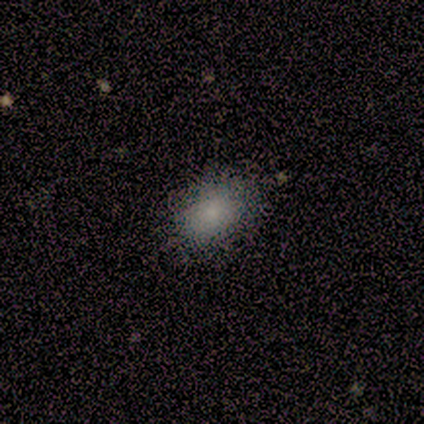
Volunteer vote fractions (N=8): Volunteers were most divided on "how rounded": in between: 71%, round: 29%, cigar-shaped: 0%. More confident: smooth or featured — smooth (88%); merging — none (88%).